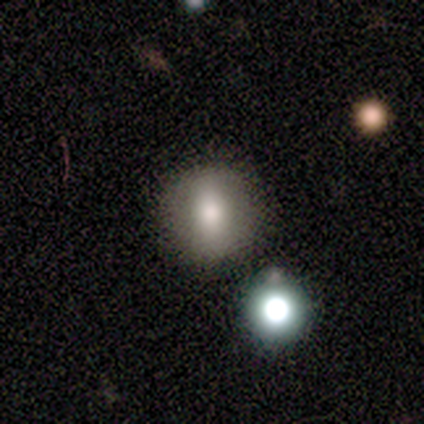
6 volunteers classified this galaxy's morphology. smooth_or_featured: smooth (p=0.67) [alt: featured or disk p=0.33]
how_rounded: round (p=0.75) [alt: in between p=0.25]
merging: none (p=0.83) [alt: minor disturbance p=0.17]